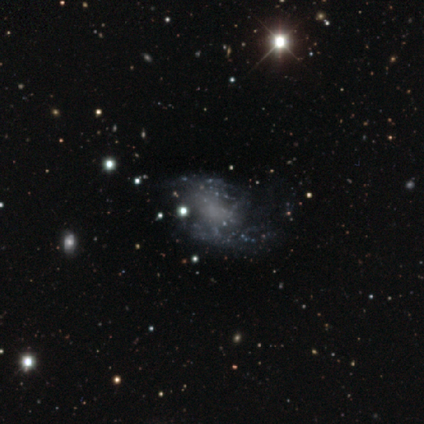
Smooth or featured? featured or disk (63%)
Edge-on disk? no (100%)
Bar? no (88%)
Spiral arms? no (83%)
Bulge size? none (92%)
Merging? none (50%)